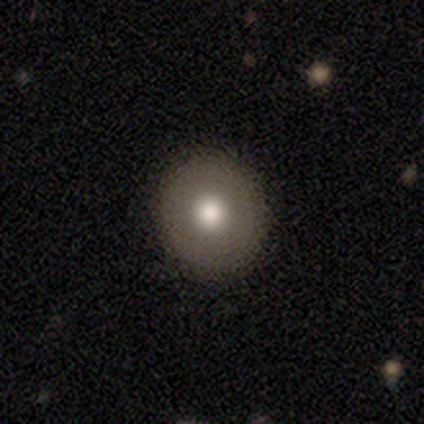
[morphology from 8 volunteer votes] type=smooth (100%); roundness=round (75%); merging=none (100%).